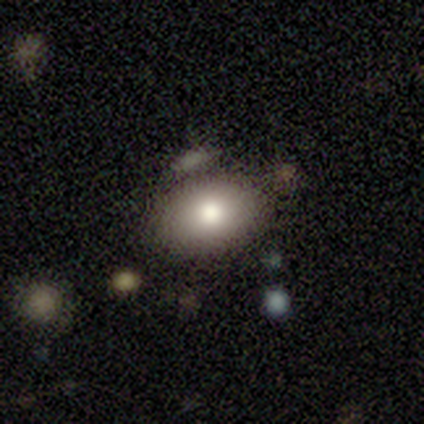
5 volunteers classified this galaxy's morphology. Consensus on every question: smooth or featured — smooth (100%); how rounded — in between (100%); merging — none (100%).